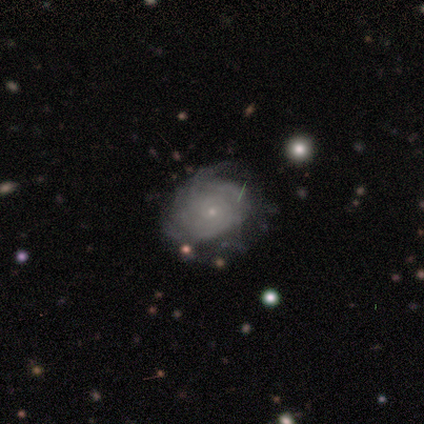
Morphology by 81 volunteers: Volunteers were most divided on "merging": none: 32%, minor disturbance: 19%, major disturbance: 4%, merger: 0%. More confident: edge-on disk — no (99%); bar — no (94%); spiral arms — yes (91%); bulge size — small (91%); smooth or featured — featured or disk (88%); spiral winding — tight (80%); spiral arm count — can't tell (73%).